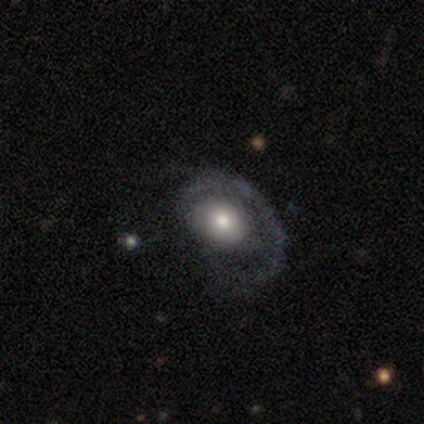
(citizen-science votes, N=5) Q: Smooth or featured?
A: featured or disk (80%); runner-up: smooth (20%)
Q: Edge-on disk?
A: no (100%)
Q: Bar?
A: no (75%); runner-up: strong (25%)
Q: Spiral arms?
A: yes (75%); runner-up: no (25%)
Q: Spiral winding?
A: tight (67%); runner-up: loose (33%)
Q: Spiral arm count?
A: 1 (67%); runner-up: can't tell (33%)
Q: Bulge size?
A: small (75%); runner-up: moderate (25%)
Q: Merging?
A: none (60%); runner-up: minor disturbance (40%)